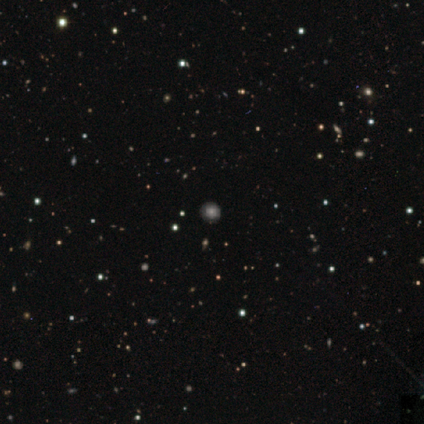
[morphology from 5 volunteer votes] Smooth or featured: smooth — 80% (featured or disk — 20%)
How rounded: round — 100%
Merging: none — 100%